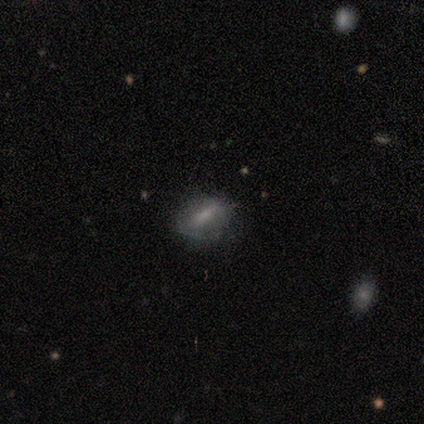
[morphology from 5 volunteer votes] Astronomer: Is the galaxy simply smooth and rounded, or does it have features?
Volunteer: featured or disk — 60% (runner-up: smooth, 40%).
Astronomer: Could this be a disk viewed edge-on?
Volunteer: no — 67%.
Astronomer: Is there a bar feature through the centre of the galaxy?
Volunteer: weak — 50%, tied with no at 50%.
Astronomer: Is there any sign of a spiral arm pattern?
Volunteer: no — 100%.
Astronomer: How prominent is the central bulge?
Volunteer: moderate — 50%, tied with small at 50%.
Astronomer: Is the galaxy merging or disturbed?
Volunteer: none — 100%.